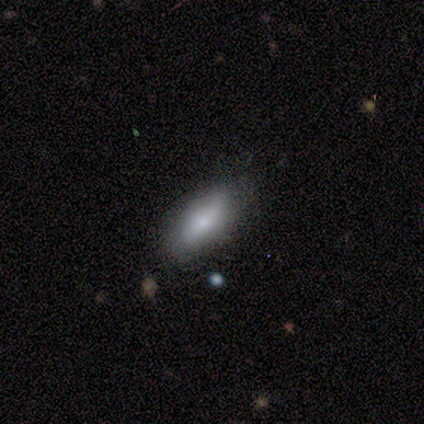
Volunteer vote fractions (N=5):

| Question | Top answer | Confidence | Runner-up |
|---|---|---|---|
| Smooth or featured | smooth | 100% | — |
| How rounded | in between | 80% | cigar-shaped (20%) |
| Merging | none | 100% | — |